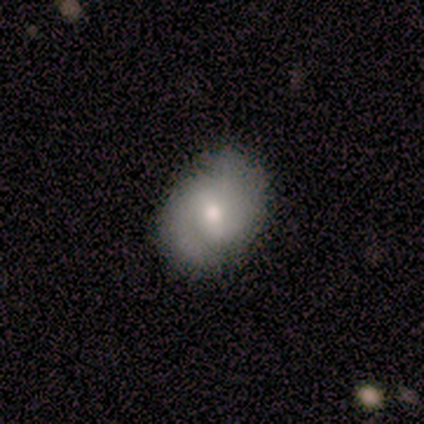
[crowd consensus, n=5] Smooth or featured: featured or disk — 80% (smooth — 20%)
Edge-on disk: no — 100%
Bar: weak — 50% (tied with no — 50%)
Spiral arms: yes — 100%
Spiral winding: tight — 75% (medium — 25%)
Spiral arm count: 2 — 100%
Bulge size: moderate — 50% (tied with small — 50%)
Merging: none — 100%